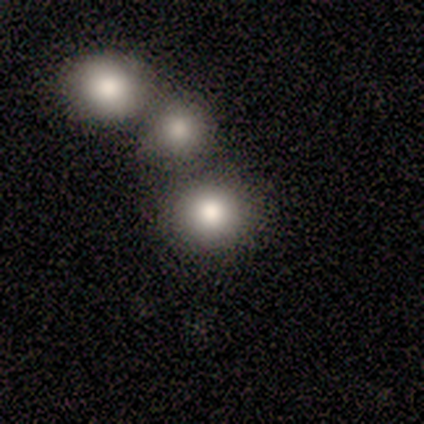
Morphology: type=smooth (80%); roundness=round (100%); merging=none (100%).